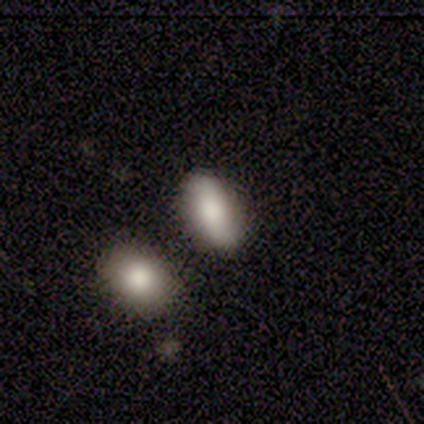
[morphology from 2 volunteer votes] Volunteers were most divided on "smooth or featured" (2-way tie): smooth: 50%, star or artifact: 50%, featured or disk: 0%. More confident: how rounded — in between (100%); merging — none (100%).